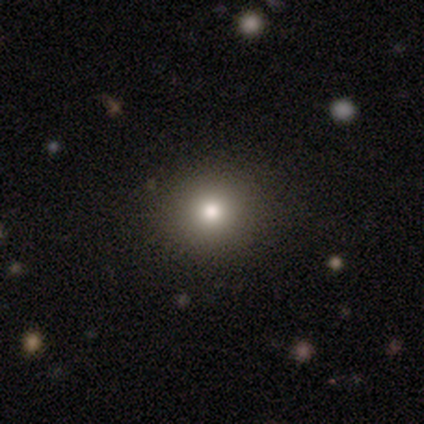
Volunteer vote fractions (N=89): A smooth galaxy with no disk features (76%) that is round (84%). Merging: none (88%).